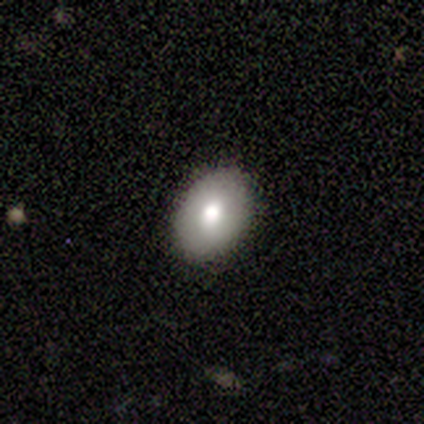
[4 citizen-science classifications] Q: Smooth or featured?
A: smooth (100%)
Q: How rounded?
A: in between (75%); runner-up: round (25%)
Q: Merging?
A: none (100%)